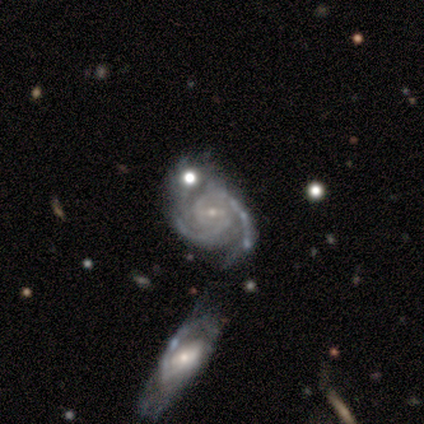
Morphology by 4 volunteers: Overall: featured or disk (100%). Edge-on disk: no (100%). Bar: weak (75%). Spiral arms: yes (100%). Spiral arm count: 2 (75%). Spiral winding: tight (75%). Bulge size: small (100%). Merging: merger (75%).